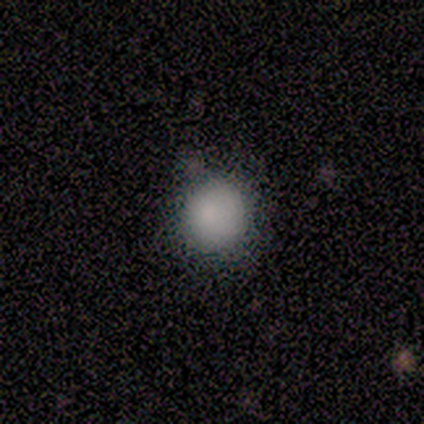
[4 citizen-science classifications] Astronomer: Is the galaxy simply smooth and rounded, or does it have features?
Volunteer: smooth — 100%.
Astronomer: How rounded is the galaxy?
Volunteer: round — 100%.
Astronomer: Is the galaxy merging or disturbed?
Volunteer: none — 50%, tied with minor disturbance at 50%.